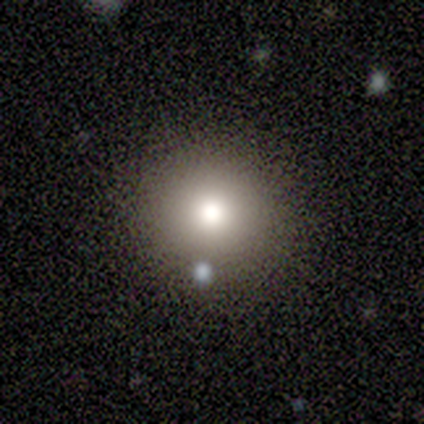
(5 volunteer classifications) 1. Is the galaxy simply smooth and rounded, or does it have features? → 60% smooth, 20% featured or disk, 20% star or artifact.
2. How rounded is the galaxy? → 100% round, 0% in between, 0% cigar-shaped.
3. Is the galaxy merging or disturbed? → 75% none, 25% major disturbance, 0% minor disturbance, 0% merger.